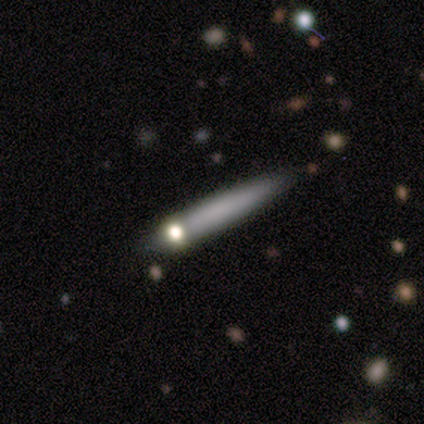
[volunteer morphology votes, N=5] type=smooth (80%); roundness=cigar-shaped (75%); merging=none (75%).